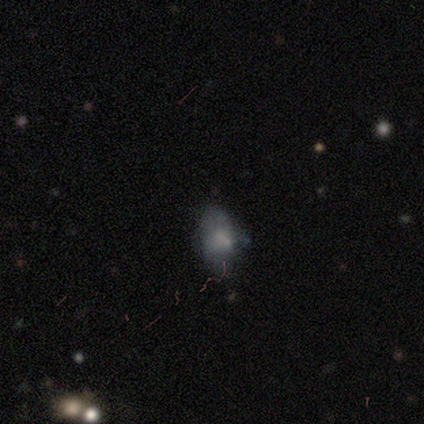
Smooth or featured? 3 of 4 (75%) said smooth. How rounded? 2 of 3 (67%) said in between. Merging? 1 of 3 (33%, tied with minor disturbance and major disturbance) said none.